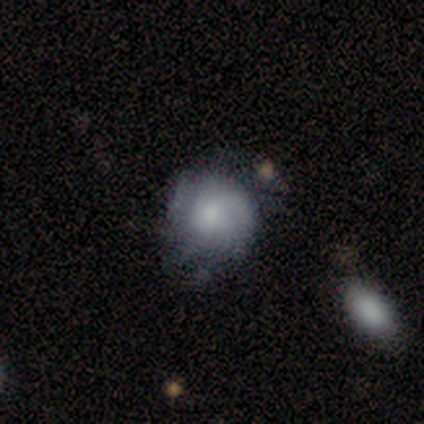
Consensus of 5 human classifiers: Smooth or featured: smooth — 40% (tied with featured or disk — 40%)
How rounded: round — 100%
Merging: none — 50% (minor disturbance — 25%)